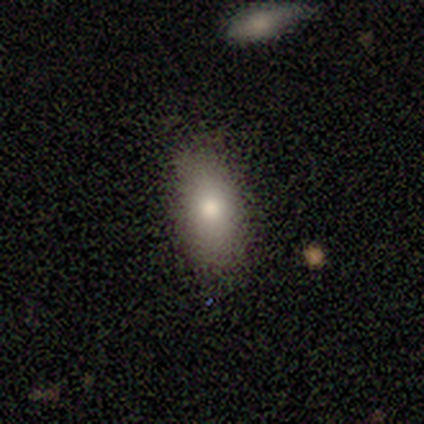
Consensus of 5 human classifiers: Smooth or featured: smooth — 80% (featured or disk — 20%)
How rounded: in between — 75% (round — 25%)
Merging: none — 100%